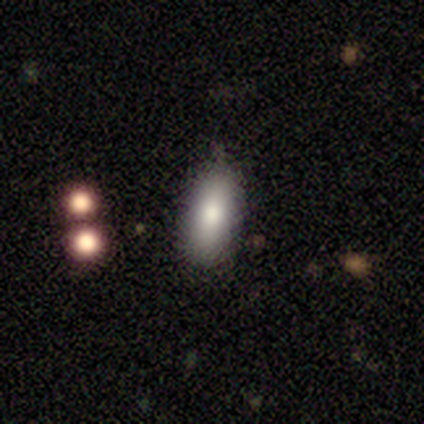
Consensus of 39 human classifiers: Smooth or featured?
  - smooth: 90% *
  - featured or disk: 8%
  - star or artifact: 3%
How rounded?
  - in between: 83% *
  - cigar-shaped: 14%
  - round: 3%
Merging?
  - none: 71% *
  - minor disturbance: 24%
  - major disturbance: 3%
  - merger: 3%